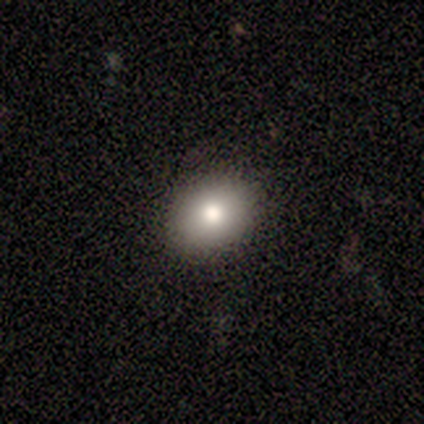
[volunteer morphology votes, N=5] This appears to be a smooth galaxy with no disk features (60%) that is in between round and cigar-shaped (67%). Merging: none (100%).